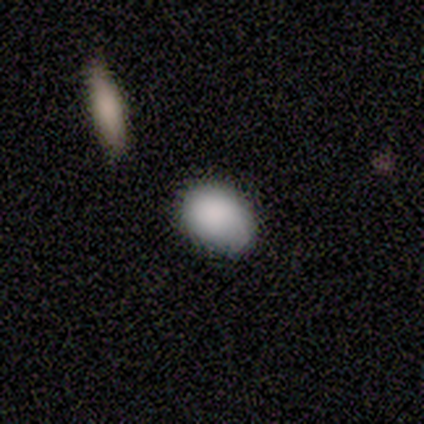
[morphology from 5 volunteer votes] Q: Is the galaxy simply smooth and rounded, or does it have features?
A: smooth — 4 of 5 (80%).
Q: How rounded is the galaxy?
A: in between — 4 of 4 (100%).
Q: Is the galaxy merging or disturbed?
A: none — 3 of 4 (75%).